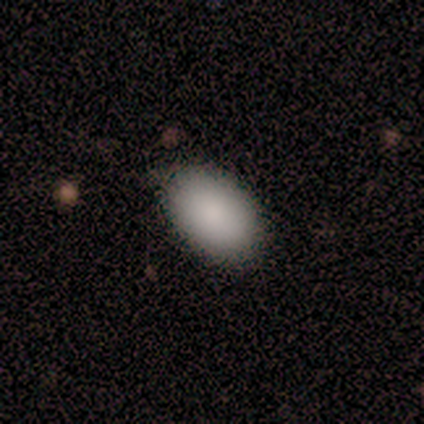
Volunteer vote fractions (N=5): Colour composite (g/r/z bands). It shows a smooth galaxy with no disk features (100%) that is in between round and cigar-shaped (100%). Merging: none (80%).